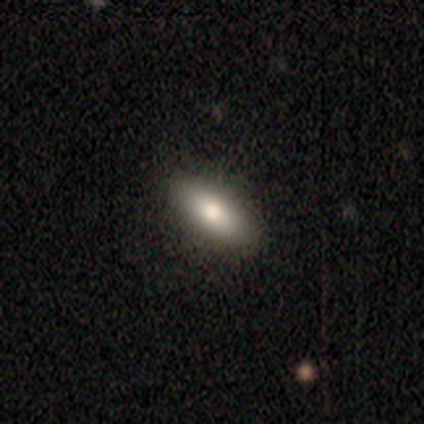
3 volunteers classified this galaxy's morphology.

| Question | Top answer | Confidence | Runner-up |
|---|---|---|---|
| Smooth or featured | smooth | 100% | — |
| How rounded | in between | 67% | cigar-shaped (33%) |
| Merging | none | 67% | merger (33%) |